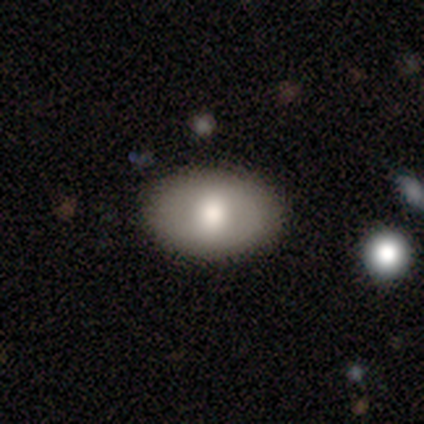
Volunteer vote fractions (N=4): Overall: smooth (50%, tied with featured or disk). How rounded: in between (100%). Merging: none (75%).